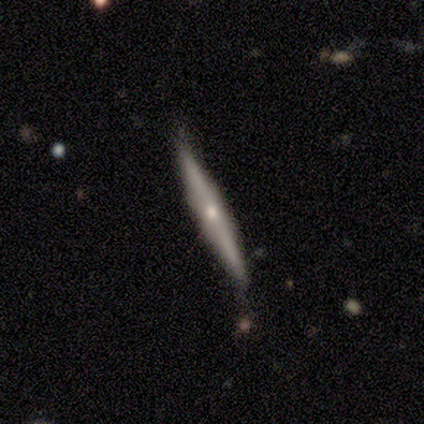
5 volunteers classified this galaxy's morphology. This appears to be a featured or disk galaxy (60%) viewed edge-on (100%) with a rounded central bulge (67%). Merging: none (80%).